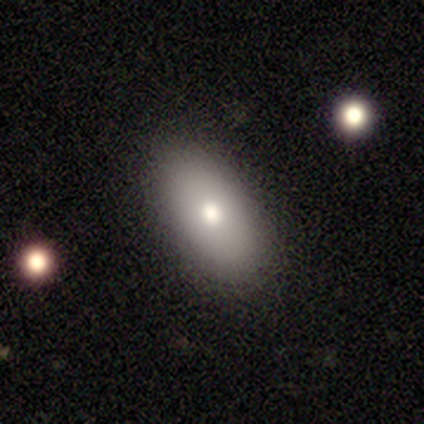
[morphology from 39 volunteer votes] smooth 72%, featured or disk 15%, star or artifact 13%. Down the decision tree: how rounded — in between (100%); merging — none (94%).